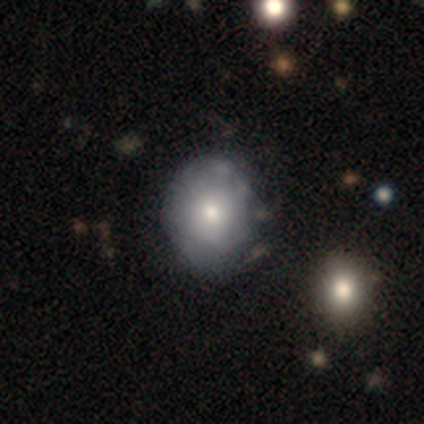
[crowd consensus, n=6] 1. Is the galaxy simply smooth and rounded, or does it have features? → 100% smooth, 0% featured or disk, 0% star or artifact.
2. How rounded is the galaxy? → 67% round, 33% in between, 0% cigar-shaped.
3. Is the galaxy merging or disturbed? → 67% none, 17% minor disturbance, 17% major disturbance, 0% merger.